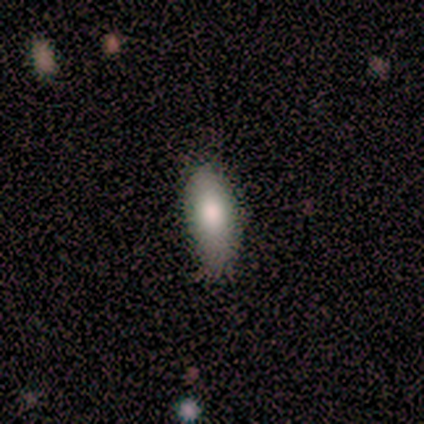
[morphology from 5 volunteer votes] Q: Smooth or featured?
A: smooth (80%); runner-up: featured or disk (20%)
Q: How rounded?
A: in between (100%)
Q: Merging?
A: none (60%); runner-up: minor disturbance (40%)